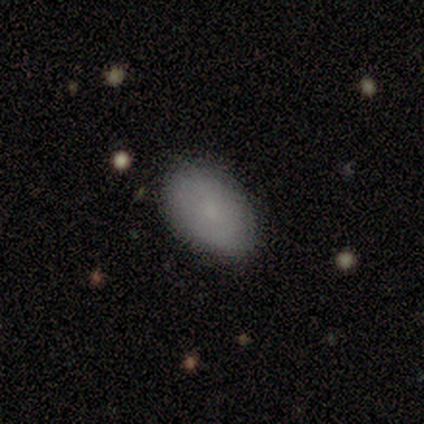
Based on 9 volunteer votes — This is clearly a smooth galaxy (100%). How rounded: clearly in between (89%). Merging: clearly none (89%).